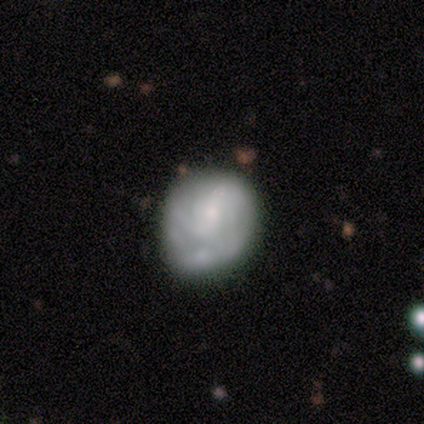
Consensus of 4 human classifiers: Overall: featured or disk (75%). Edge-on disk: no (100%). Bar: no (67%; weak 33%). Spiral arms: no (67%; yes 33%). Bulge size: small (67%; none 33%). Merging: none (75%).